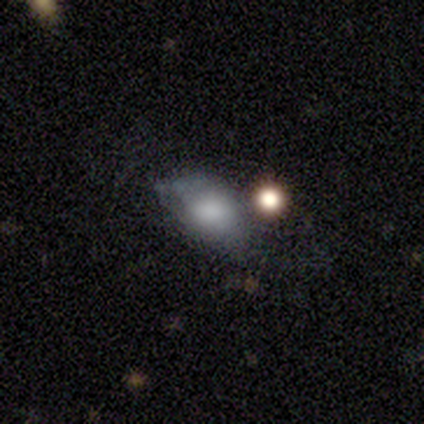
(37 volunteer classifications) smooth 70%, featured or disk 22%, star or artifact 8%. Down the decision tree: how rounded — in between (88%); merging — minor disturbance (38%).